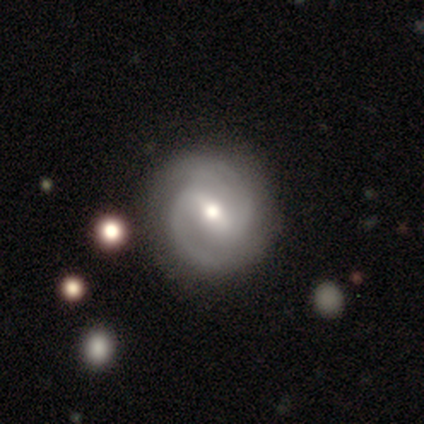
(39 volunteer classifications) A featured or disk galaxy (92%) with a weak bar (51%), 2 (97%) medium (74%) spiral arms (100%) and a moderate central bulge (74%). Merging: none (87%).